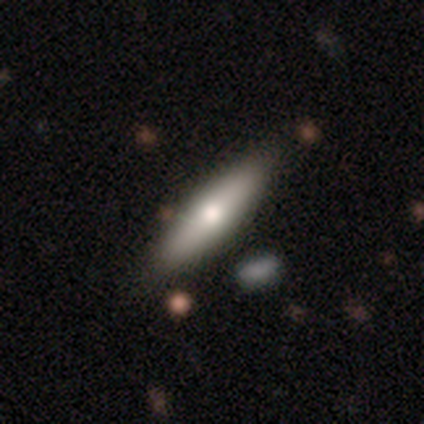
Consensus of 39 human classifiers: Smooth or featured? 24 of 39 (62%) said smooth. How rounded? 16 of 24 (67%) said cigar-shaped. Merging? 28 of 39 (72%) said none.